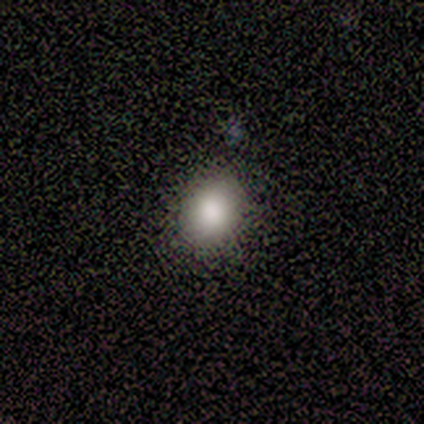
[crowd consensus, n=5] Morphology: type=smooth (80%); roundness=round (75%); merging=none (50%, tied with minor disturbance).